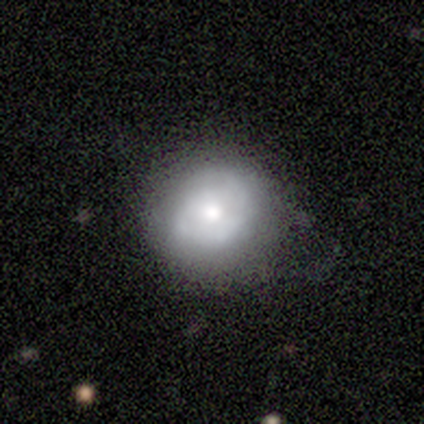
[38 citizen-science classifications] A smooth galaxy with no disk features (50%) that is round (84%). Merging: none (70%).